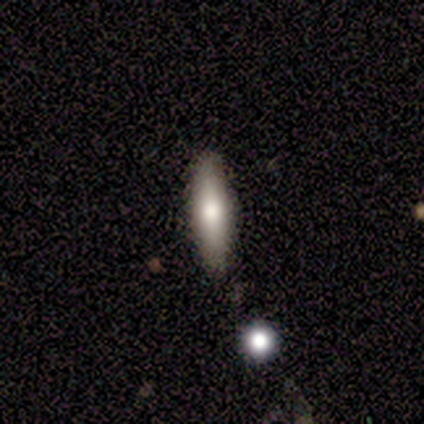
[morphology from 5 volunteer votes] Smooth or featured? 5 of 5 (100%) said smooth. How rounded? 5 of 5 (100%) said cigar-shaped. Merging? 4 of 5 (80%) said none.